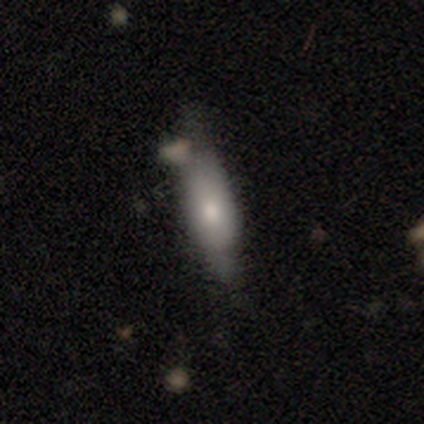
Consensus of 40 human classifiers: Smooth or featured?
  - smooth: 62% *
  - featured or disk: 32%
  - star or artifact: 5%
How rounded?
  - in between: 48% * (tied)
  - cigar-shaped: 48% * (tied)
  - round: 4%
Merging?
  - none: 42% *
  - minor disturbance: 32%
  - major disturbance: 16%
  - merger: 11%